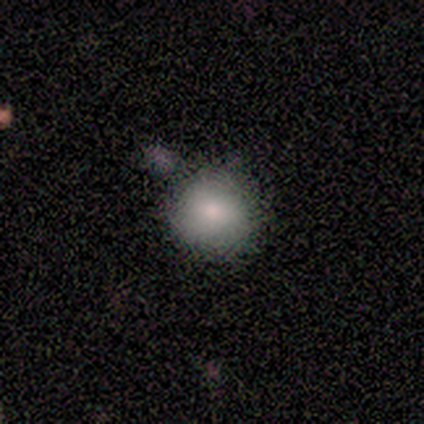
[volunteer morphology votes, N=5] Smooth or featured? 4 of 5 (80%) said smooth. How rounded? 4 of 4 (100%) said round. Merging? 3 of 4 (75%) said none.